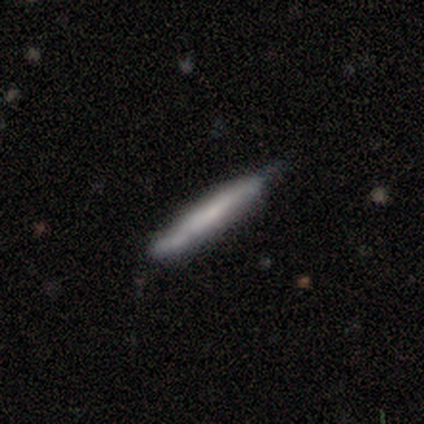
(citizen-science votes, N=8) Overall: featured or disk (62%; smooth 38%). Edge-on disk: yes (100%). Edge-on bulge: boxy (40%, tied with none). Merging: none (50%, tied with minor disturbance).